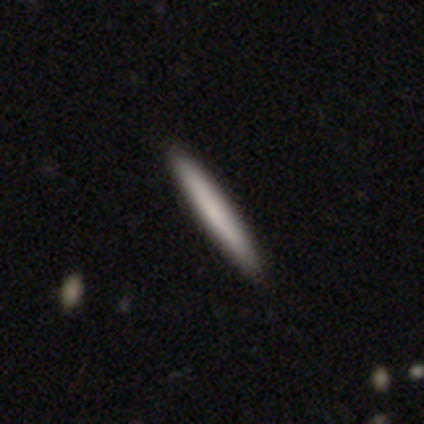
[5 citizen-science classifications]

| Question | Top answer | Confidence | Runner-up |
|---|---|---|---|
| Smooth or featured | smooth | 100% | — |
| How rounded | cigar-shaped | 100% | — |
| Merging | none | 100% | — |